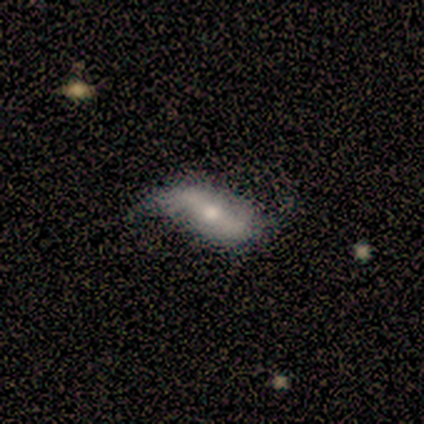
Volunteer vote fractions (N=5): Q: Smooth or featured?
A: smooth (60%); runner-up: featured or disk (40%)
Q: How rounded?
A: cigar-shaped (67%); runner-up: in between (33%)
Q: Merging?
A: none (60%); runner-up: minor disturbance (40%)